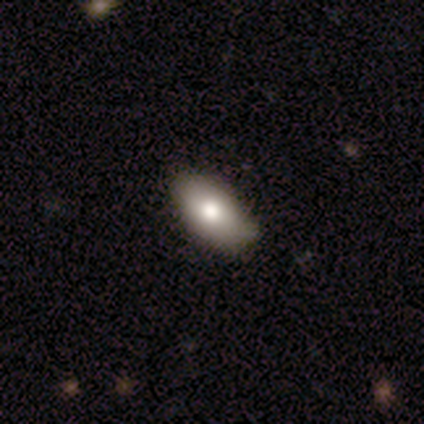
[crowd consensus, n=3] Morphology: type=smooth (100%); roundness=in between (100%); merging=none (100%).